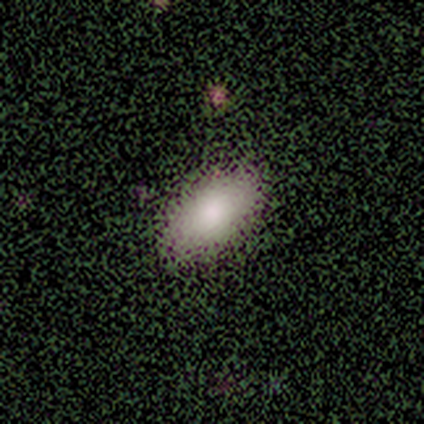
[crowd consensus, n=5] A smooth galaxy with no disk features (80%) that is in between round and cigar-shaped (100%).

Vote fractions:
- Smooth or featured? smooth: 80% / featured or disk: 20% / star or artifact: 0%
- How rounded? in between: 100% / round: 0% / cigar-shaped: 0%
- Merging? none: 100% / minor disturbance: 0% / major disturbance: 0% / merger: 0%